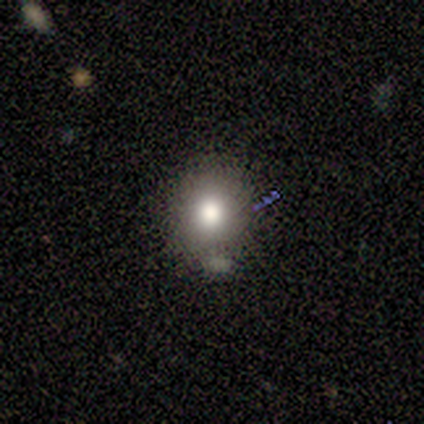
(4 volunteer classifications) Smooth or featured: smooth — 50% (tied with featured or disk — 50%)
How rounded: round — 100%
Merging: none — 75% (minor disturbance — 25%)